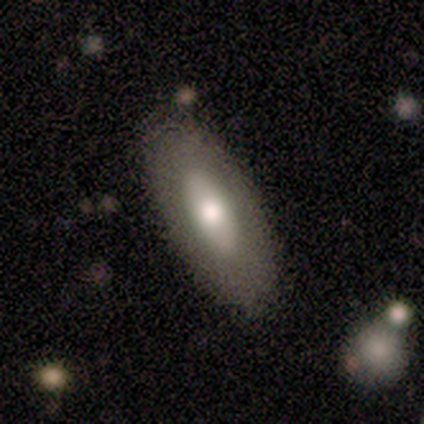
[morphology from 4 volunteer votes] smooth-or-featured: smooth: 100% | featured or disk: 0% | star or artifact: 0%
  how-rounded: in between: 75% | round: 25% | cigar-shaped: 0%
  merging: none: 100% | minor disturbance: 0% | major disturbance: 0% | merger: 0%